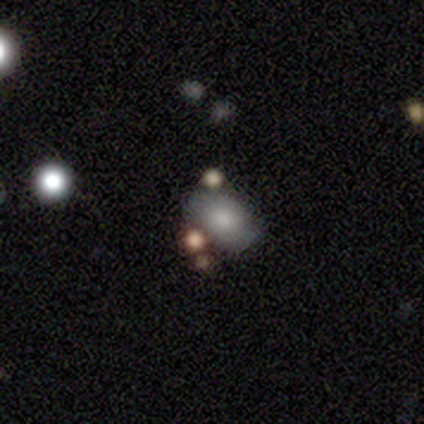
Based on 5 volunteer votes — This is clearly a smooth galaxy (80%). How rounded: clearly in between (100%). Merging: clearly none (80%).